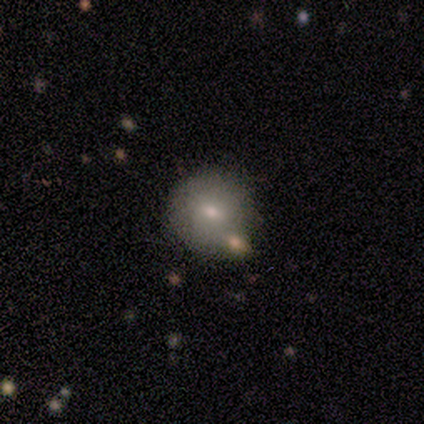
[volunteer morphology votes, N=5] A smooth galaxy with no disk features (80%) that is round (100%). Merging: none (80%).